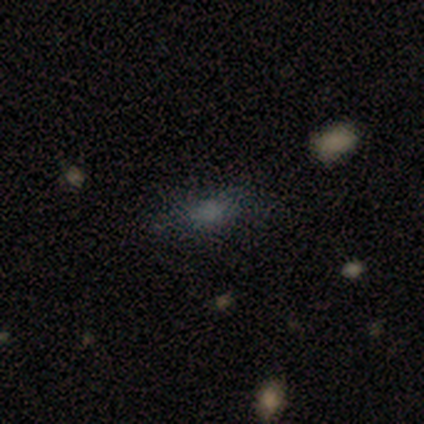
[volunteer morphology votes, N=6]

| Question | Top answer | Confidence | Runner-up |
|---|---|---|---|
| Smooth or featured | smooth | 83% | featured or disk (17%) |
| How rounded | in between | 60% | round (40%) |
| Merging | none | 83% | merger (17%) |